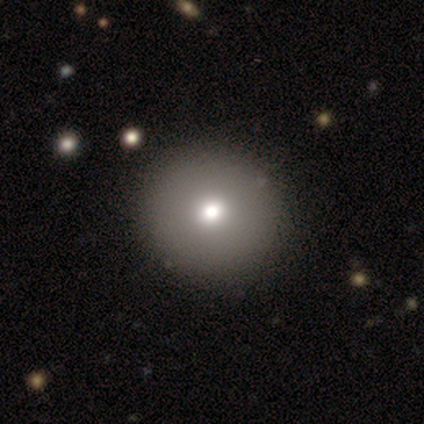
Smooth or featured? 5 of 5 (100%) said smooth. How rounded? 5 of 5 (100%) said round. Merging? 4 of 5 (80%) said none.